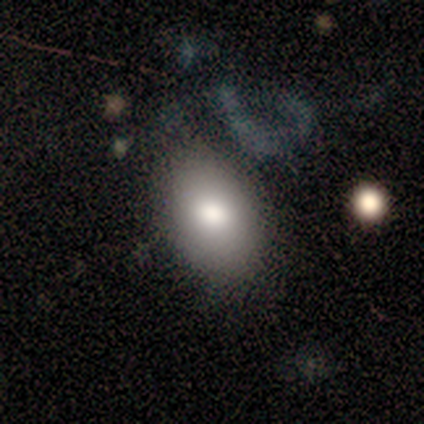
This is likely a smooth galaxy (67%). How rounded: clearly in between (100%). Merging: likely none (60%).